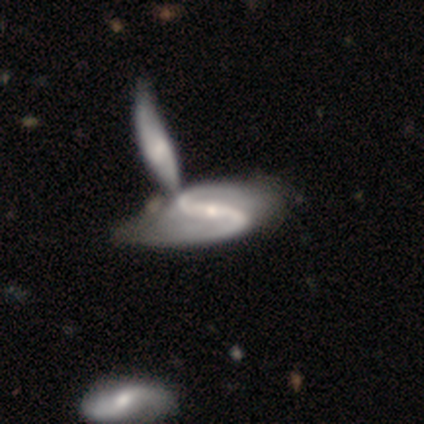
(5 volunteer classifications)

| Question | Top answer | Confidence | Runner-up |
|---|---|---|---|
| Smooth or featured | featured or disk | 100% | — |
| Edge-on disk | no | 100% | — |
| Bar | strong | 80% | weak (20%) |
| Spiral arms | yes | 100% | — |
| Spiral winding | medium | 40% | tied: loose (40%) |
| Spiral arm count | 2 | 100% | — |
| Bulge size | small | 60% | moderate (40%) |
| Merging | none | 40% | tied: merger (40%) |